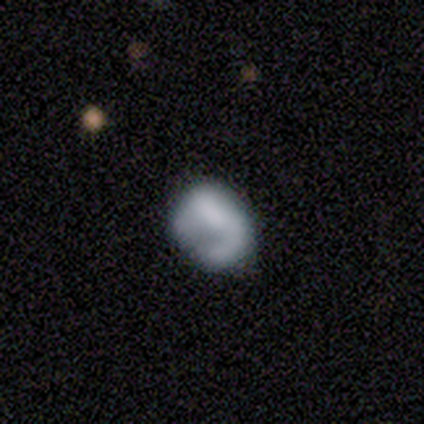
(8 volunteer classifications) smooth-or-featured: smooth: 75% | featured or disk: 12% | star or artifact: 12%
  how-rounded: round: 67% | in between: 33% | cigar-shaped: 0%
  merging: none: 86% | major disturbance: 14% | minor disturbance: 0% | merger: 0%